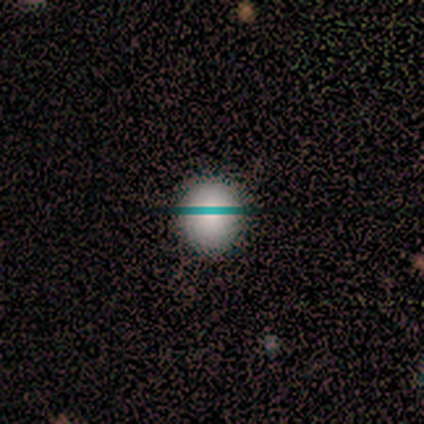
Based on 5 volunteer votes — Q: Smooth or featured?
A: smooth (60%); runner-up: featured or disk (20%)
Q: How rounded?
A: round (100%)
Q: Merging?
A: none (75%); runner-up: minor disturbance (25%)